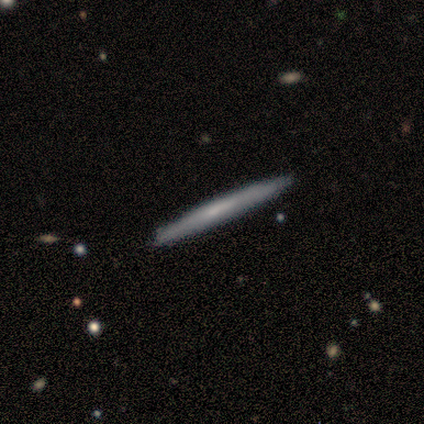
This appears to be a smooth galaxy with no disk features (60%) that is cigar-shaped (100%). Merging: none (80%).